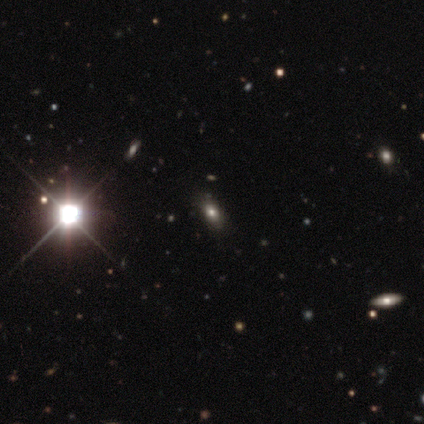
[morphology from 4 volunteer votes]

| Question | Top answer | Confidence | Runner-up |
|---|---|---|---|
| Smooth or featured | star or artifact | 50% | smooth (25%) |